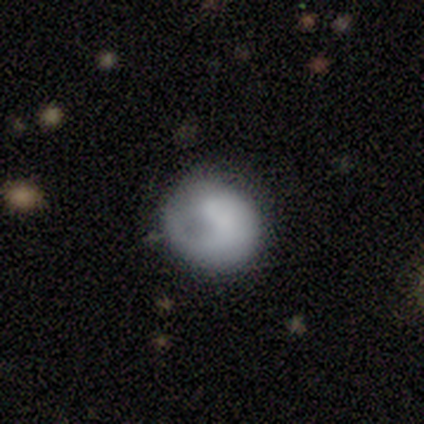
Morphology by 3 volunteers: This is likely a smooth galaxy (67%). How rounded: clearly round (100%). Merging: clearly none (100%).